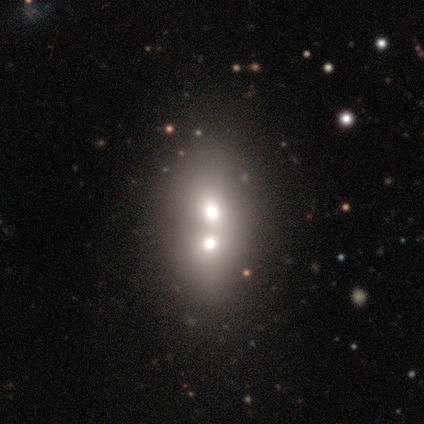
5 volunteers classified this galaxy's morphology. Smooth or featured? smooth (60%)
How rounded? in between (100%)
Merging? merger (80%)